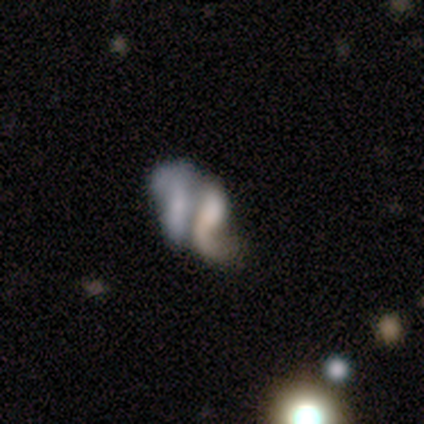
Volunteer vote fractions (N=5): Morphology: type=featured or disk (60%); edge-on=no (100%); bar=no (100%); spiral arms=no (100%); bulge=none (100%); merging=merger (75%).